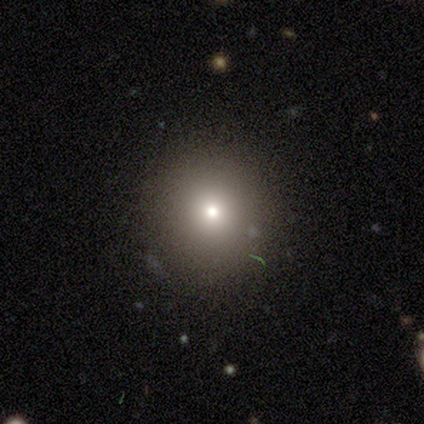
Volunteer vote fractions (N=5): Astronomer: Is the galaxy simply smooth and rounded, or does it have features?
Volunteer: smooth — 40%, tied with star or artifact at 40%.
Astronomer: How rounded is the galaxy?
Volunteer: round — 100%.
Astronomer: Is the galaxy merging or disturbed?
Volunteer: none — 100%.